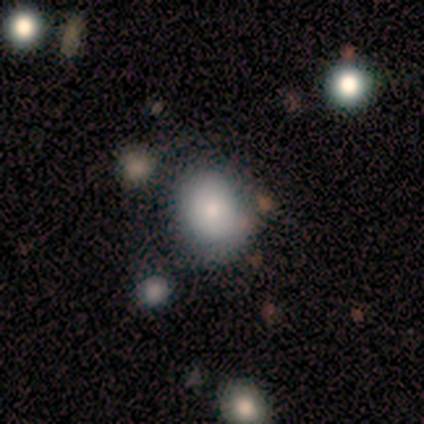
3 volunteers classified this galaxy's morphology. This is likely a smooth galaxy (67%). How rounded: possibly round (50%, tied with in between). Merging: likely none (67%).